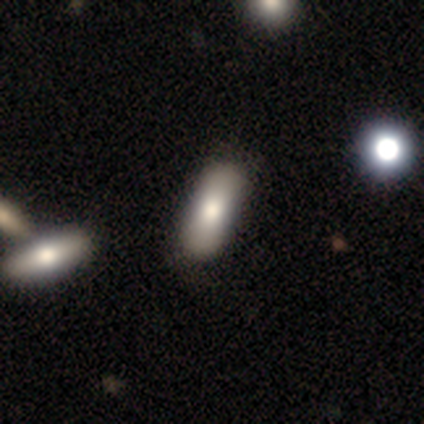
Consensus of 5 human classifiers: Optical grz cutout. It shows a smooth galaxy with no disk features (60%) that is in between round and cigar-shaped (100%). Merging: none (75%).